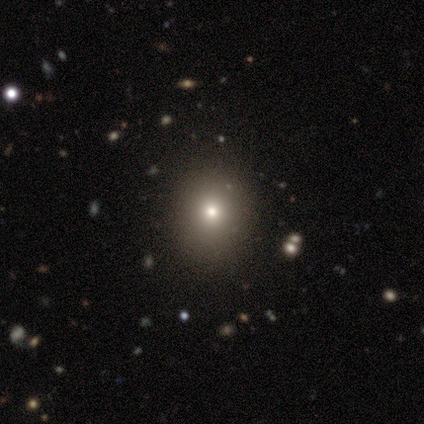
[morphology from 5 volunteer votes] This is likely a smooth galaxy (60%). How rounded: likely round (67%). Merging: clearly none (100%).